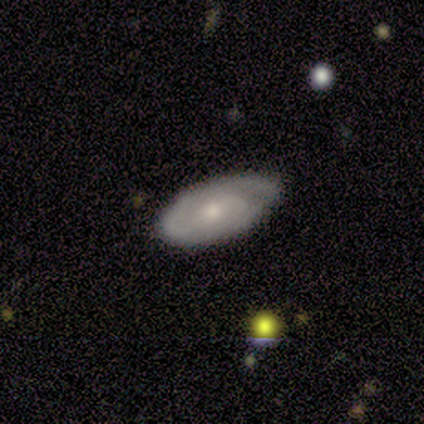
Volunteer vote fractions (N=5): Smooth or featured?
  - featured or disk: 80% *
  - smooth: 20%
  - star or artifact: 0%
Edge-on disk?
  - no: 75% *
  - yes: 25%
Bar?
  - no: 100% *
  - strong: 0%
  - weak: 0%
Spiral arms?
  - yes: 100% *
  - no: 0%
Spiral winding?
  - tight: 67% *
  - medium: 33%
  - loose: 0%
Spiral arm count?
  - 1: 67% *
  - 2: 33%
  - 3: 0%
  - 4: 0%
  - more than 4: 0%
  - can't tell: 0%
Bulge size?
  - small: 100% *
  - dominant: 0%
  - large: 0%
  - moderate: 0%
  - none: 0%
Merging?
  - none: 40% * (tied)
  - minor disturbance: 40% * (tied)
  - major disturbance: 20%
  - merger: 0%